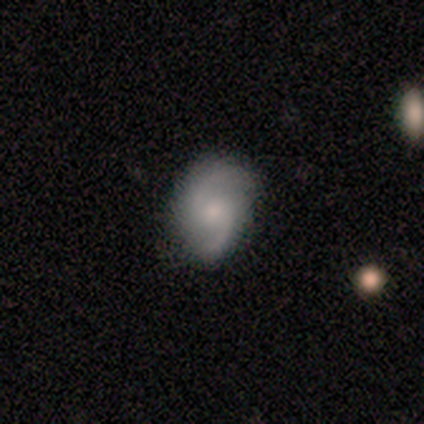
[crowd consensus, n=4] Morphology: type=featured or disk (100%); edge-on=no (100%); bar=no (75%); spiral arms=yes (75%); winding=medium (67%); arm count=2 (100%); bulge=moderate (50%, tied with small); merging=none (75%).